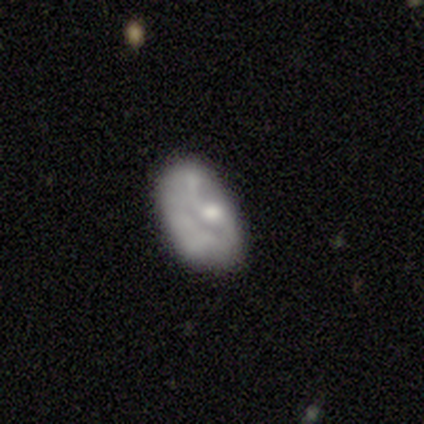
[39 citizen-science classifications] Volunteers were most divided on "bulge size": none: 38%, moderate: 33%, small: 21%, large: 8%, dominant: 0%. Remaining: edge-on disk — no (96%); bar — no (71%); smooth or featured — featured or disk (64%); spiral arms — no (58%); merging — minor disturbance (35%).